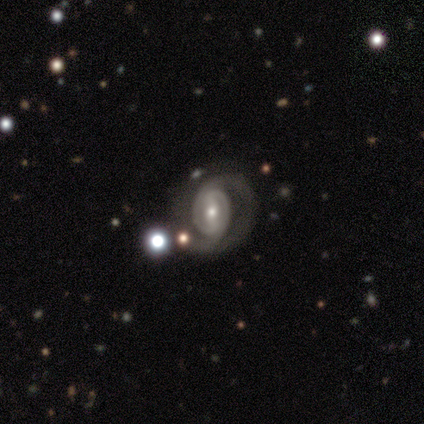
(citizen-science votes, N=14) Smooth or featured? featured or disk (79%)
Edge-on disk? no (91%)
Bar? weak (70%)
Spiral arms? yes (90%)
Spiral winding? tight (56%)
Spiral arm count? 2 (89%)
Bulge size? moderate (70%)
Merging? none (62%)